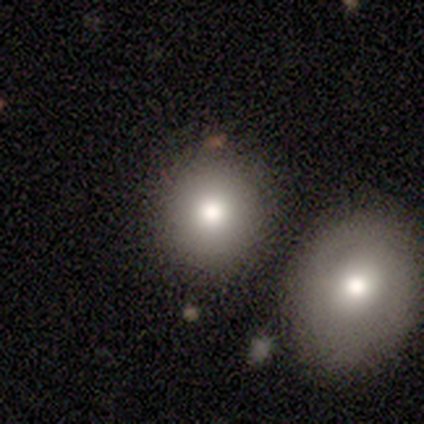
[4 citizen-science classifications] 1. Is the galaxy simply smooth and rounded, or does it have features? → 75% smooth, 25% star or artifact, 0% featured or disk.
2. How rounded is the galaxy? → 100% round, 0% in between, 0% cigar-shaped.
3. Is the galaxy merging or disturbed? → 67% merger, 33% none, 0% minor disturbance, 0% major disturbance.